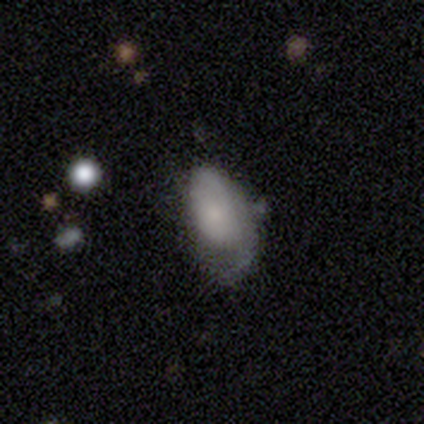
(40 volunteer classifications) Smooth or featured?
  - smooth: 52% *
  - featured or disk: 30%
  - star or artifact: 18%
How rounded?
  - in between: 90% *
  - round: 5%
  - cigar-shaped: 5%
Merging?
  - minor disturbance: 48% *
  - none: 30%
  - major disturbance: 21%
  - merger: 0%